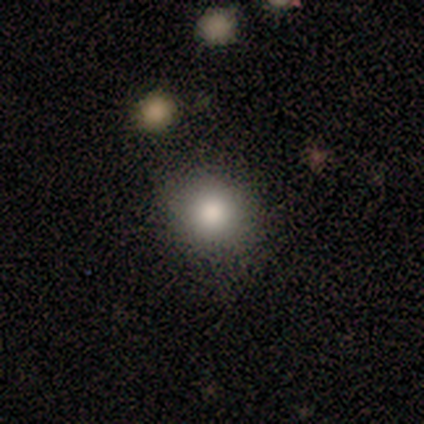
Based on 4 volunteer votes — Overall: smooth (100%). How rounded: round (75%). Merging: none (50%, tied with minor disturbance).